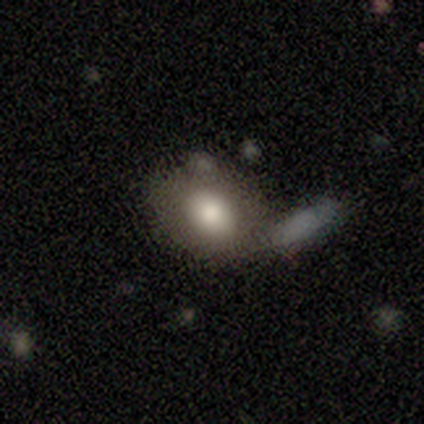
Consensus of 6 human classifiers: Q: Smooth or featured?
A: smooth (50%); tied with: featured or disk (50%)
Q: How rounded?
A: in between (100%)
Q: Merging?
A: none (50%); runner-up: major disturbance (33%)